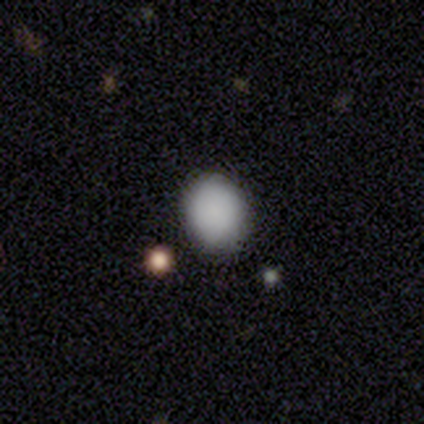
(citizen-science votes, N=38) Smooth or featured?
  - smooth: 87% *
  - featured or disk: 8%
  - star or artifact: 5%
How rounded?
  - round: 67% *
  - in between: 33%
  - cigar-shaped: 0%
Merging?
  - none: 89% *
  - minor disturbance: 6%
  - major disturbance: 3%
  - merger: 3%